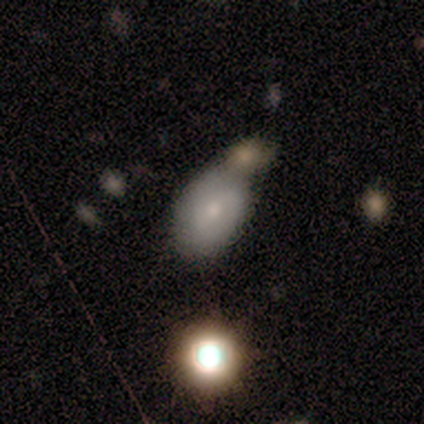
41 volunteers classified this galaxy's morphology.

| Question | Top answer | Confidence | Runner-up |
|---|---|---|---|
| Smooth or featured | smooth | 63% | featured or disk (32%) |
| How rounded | in between | 92% | round (8%) |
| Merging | none | 67% | merger (31%) |